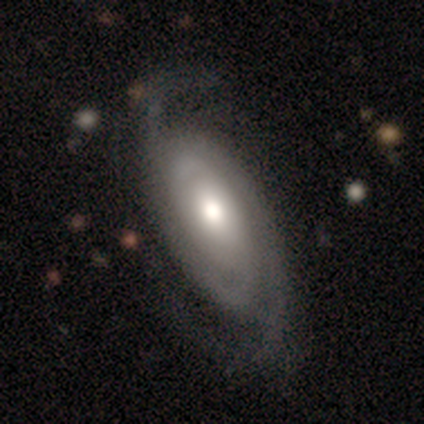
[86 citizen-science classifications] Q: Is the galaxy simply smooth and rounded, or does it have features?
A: featured or disk — 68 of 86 (79%).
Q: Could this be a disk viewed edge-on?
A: no — 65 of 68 (96%).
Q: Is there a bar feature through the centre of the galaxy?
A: no — 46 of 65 (71%).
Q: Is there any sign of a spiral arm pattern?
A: yes — 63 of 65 (97%).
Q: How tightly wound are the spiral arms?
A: tight — 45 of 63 (71%).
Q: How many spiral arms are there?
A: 2 — 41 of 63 (65%).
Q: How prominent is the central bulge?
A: moderate — 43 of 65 (66%).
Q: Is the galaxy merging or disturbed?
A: none — 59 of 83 (71%).